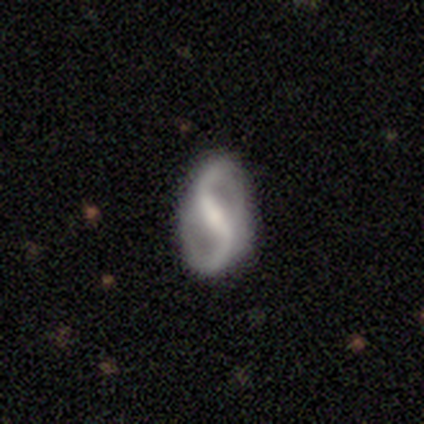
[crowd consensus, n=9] This appears to be a featured or disk galaxy (89%) with a strong bar (50%), 2 (100%) loose (62%) spiral arms (100%) and a moderate central bulge (62%). Merging: none (100%).